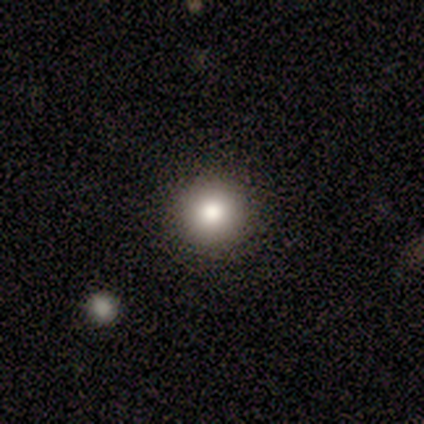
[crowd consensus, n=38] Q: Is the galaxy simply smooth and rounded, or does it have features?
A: smooth — 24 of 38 (63%).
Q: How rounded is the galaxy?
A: round — 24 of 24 (100%).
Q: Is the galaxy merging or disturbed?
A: none — 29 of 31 (94%).